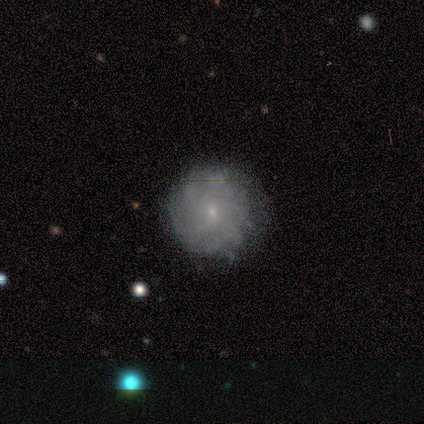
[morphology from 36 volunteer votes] Smooth or featured? featured or disk (67%)
Edge-on disk? no (92%)
Bar? weak (55%)
Spiral arms? yes (73%)
Spiral winding? tight (81%)
Spiral arm count? can't tell (62%)
Bulge size? small (91%)
Merging? none (74%)